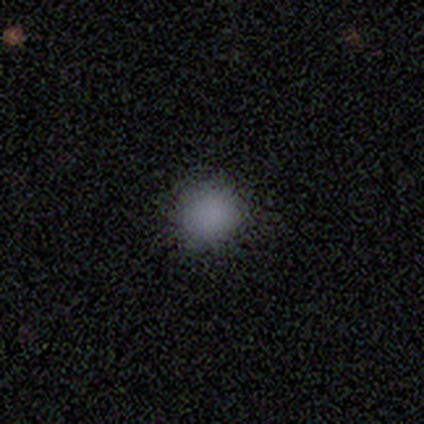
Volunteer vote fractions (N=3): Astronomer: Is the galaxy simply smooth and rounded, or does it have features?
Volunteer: smooth — 67%.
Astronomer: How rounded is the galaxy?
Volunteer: round — 100%.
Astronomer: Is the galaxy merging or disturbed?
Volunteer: none — 100%.